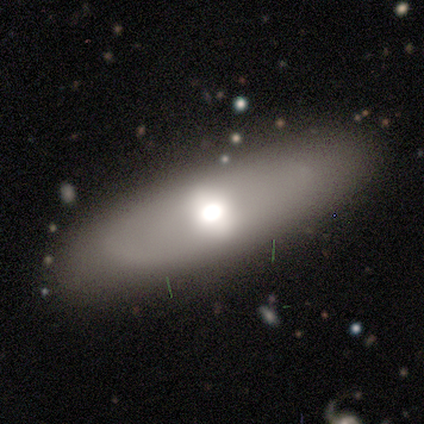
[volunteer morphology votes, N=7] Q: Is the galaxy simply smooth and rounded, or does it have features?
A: smooth — 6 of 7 (86%).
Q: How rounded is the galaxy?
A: in between — 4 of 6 (67%).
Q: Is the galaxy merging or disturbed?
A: none — 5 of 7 (71%).